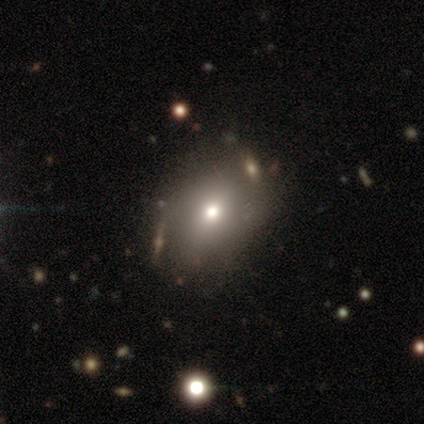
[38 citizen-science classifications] Overall: smooth (66%). How rounded: round (56%; in between 40%). Merging: none (76%).